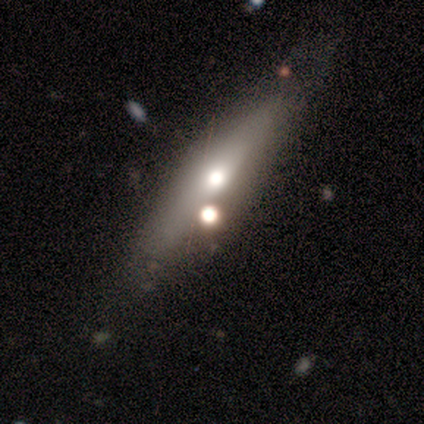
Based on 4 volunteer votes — Overall: smooth (75%). How rounded: cigar-shaped (100%). Merging: none (75%).